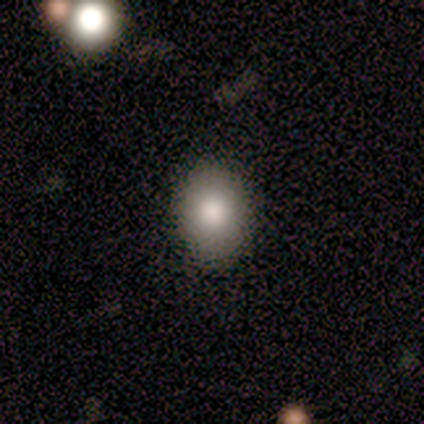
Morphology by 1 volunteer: type=smooth (100%); roundness=in between (100%); merging=minor disturbance (100%).